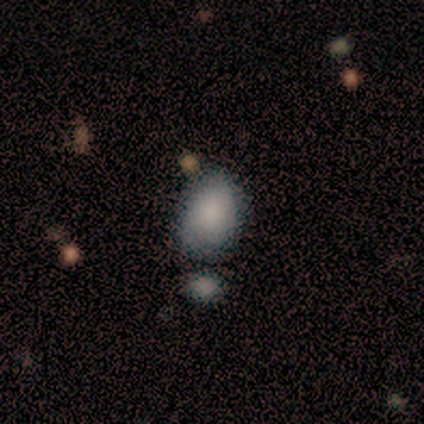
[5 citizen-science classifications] This appears to be a smooth galaxy with no disk features (80%) that is in between round and cigar-shaped (100%). Merging: none (80%).